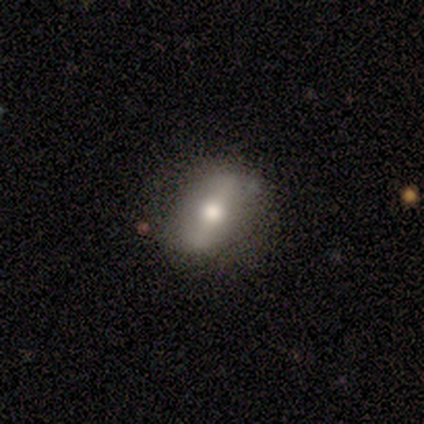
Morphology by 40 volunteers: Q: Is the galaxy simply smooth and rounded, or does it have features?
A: featured or disk — 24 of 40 (60%).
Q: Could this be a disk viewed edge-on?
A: no — 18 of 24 (75%).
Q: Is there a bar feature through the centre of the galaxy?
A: strong — 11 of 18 (61%).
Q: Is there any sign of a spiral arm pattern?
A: no — 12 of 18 (67%).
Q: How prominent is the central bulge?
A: moderate — 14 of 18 (78%).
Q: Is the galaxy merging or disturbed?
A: none — 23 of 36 (64%).